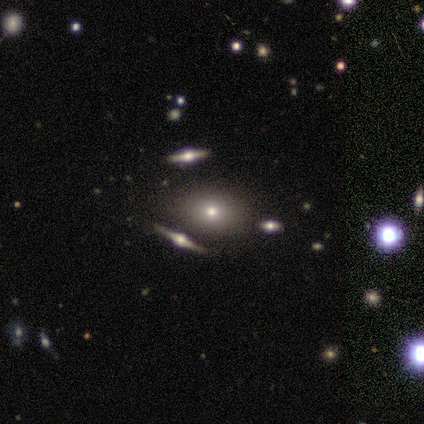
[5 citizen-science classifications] A smooth galaxy with no disk features (60%) that is round (100%).

Vote fractions:
- Smooth or featured? smooth: 60% / featured or disk: 40% / star or artifact: 0%
- How rounded? round: 100% / in between: 0% / cigar-shaped: 0%
- Merging? none: 60% / major disturbance: 20% / merger: 20% / minor disturbance: 0%